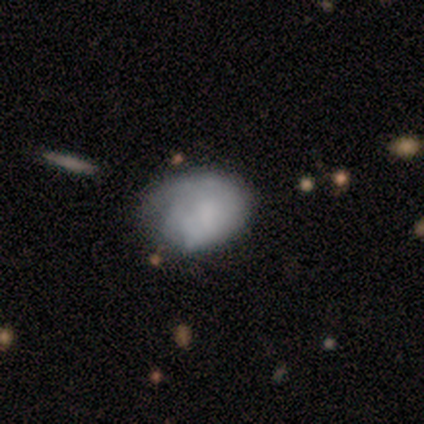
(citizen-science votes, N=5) Volunteers were most divided on "smooth or featured": featured or disk: 60%, smooth: 40%, star or artifact: 0%. Remaining: edge-on disk — no (100%); bar — no (100%); spiral arms — no (67%); bulge size — none (67%); merging — none (40%).